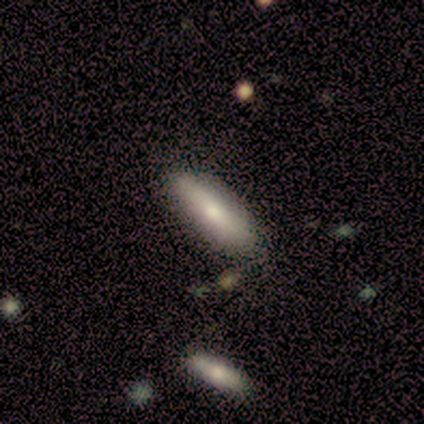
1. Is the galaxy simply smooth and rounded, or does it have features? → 100% smooth, 0% featured or disk, 0% star or artifact.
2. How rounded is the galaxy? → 60% cigar-shaped, 40% in between, 0% round.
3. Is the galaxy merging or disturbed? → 80% none, 20% minor disturbance, 0% major disturbance, 0% merger.